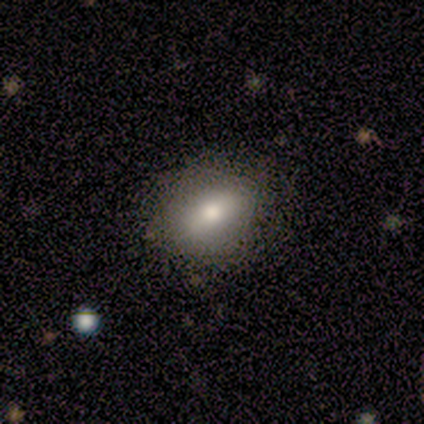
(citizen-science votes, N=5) Q: Smooth or featured?
A: featured or disk (60%); runner-up: smooth (40%)
Q: Edge-on disk?
A: yes (67%); runner-up: no (33%)
Q: Edge-on bulge?
A: rounded (100%)
Q: Merging?
A: none (60%); runner-up: minor disturbance (40%)